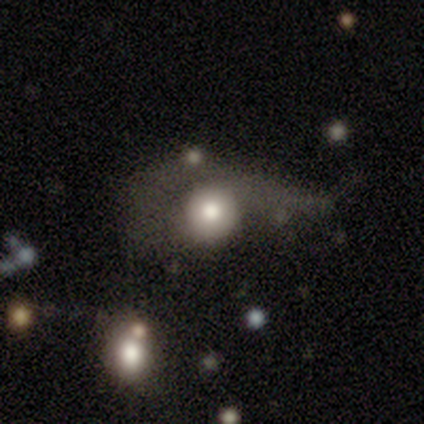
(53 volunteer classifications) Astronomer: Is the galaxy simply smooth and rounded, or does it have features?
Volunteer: smooth — 55% (runner-up: featured or disk, 42%).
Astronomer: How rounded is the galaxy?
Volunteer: round — 79%.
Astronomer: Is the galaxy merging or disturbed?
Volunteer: major disturbance — 69%.